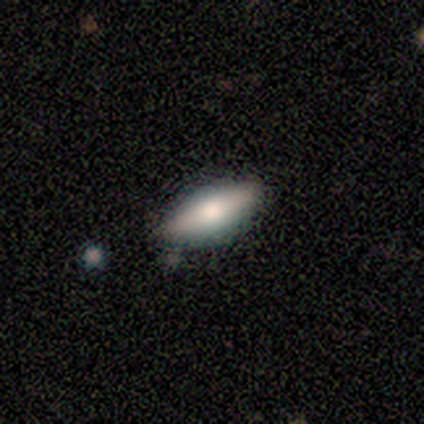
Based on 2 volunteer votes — smooth-or-featured: smooth: 50% (tied) | featured or disk: 50% (tied) | star or artifact: 0%
  how-rounded: in between: 100% | round: 0% | cigar-shaped: 0%
  merging: none: 100% | minor disturbance: 0% | major disturbance: 0% | merger: 0%